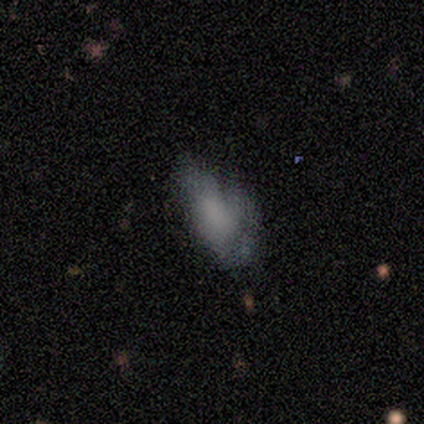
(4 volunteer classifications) smooth 75%, featured or disk 25%, star or artifact 0%. Down the decision tree: how rounded — in between (100%); merging — none (50%, tied with minor disturbance).